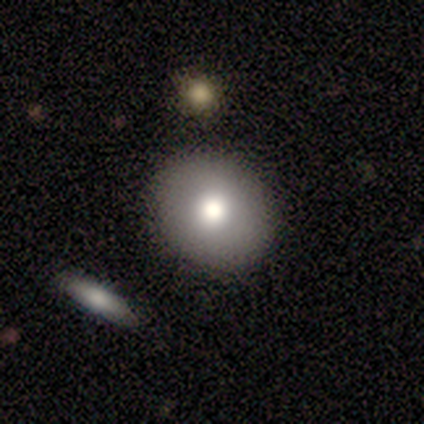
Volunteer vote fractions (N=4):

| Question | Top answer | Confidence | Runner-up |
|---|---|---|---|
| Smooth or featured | smooth | 50% | tied: featured or disk (50%) |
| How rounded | round | 100% | — |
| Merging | none | 100% | — |